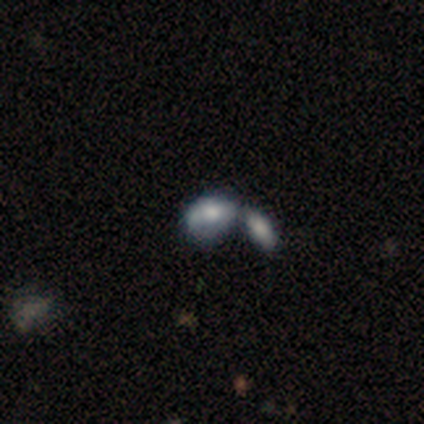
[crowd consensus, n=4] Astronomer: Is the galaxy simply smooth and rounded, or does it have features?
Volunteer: smooth — 75%.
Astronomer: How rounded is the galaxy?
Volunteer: in between — 100%.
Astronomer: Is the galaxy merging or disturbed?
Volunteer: merger — 50%.